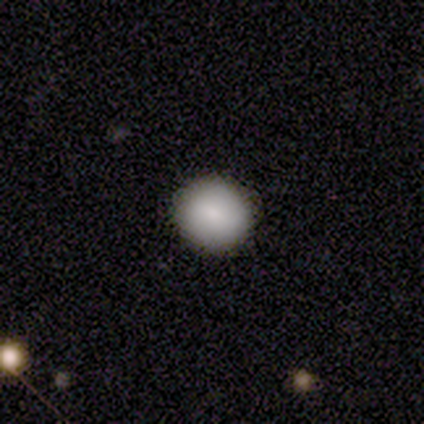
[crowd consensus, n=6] Overall: smooth (100%). How rounded: round (100%). Merging: none (100%).